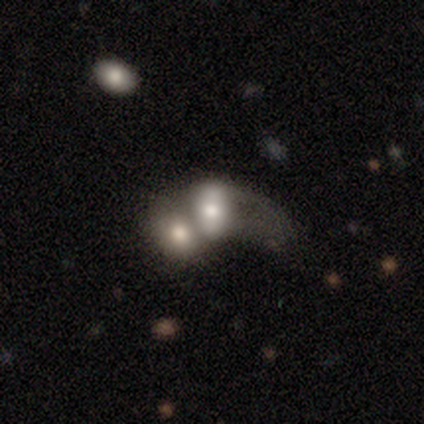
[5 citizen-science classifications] Volunteers were most divided on "smooth or featured": smooth: 60%, featured or disk: 40%, star or artifact: 0%. More confident: how rounded — in between (100%); merging — merger (80%).